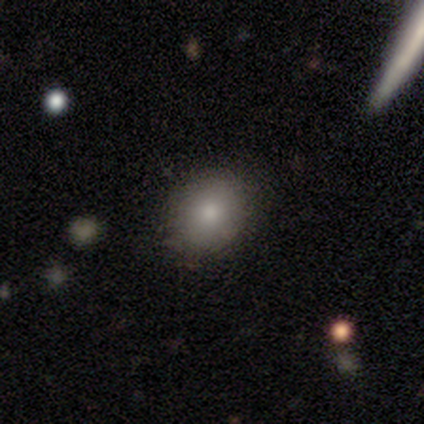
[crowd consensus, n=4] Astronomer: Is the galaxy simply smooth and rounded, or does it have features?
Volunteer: smooth — 100%.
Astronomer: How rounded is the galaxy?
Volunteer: round — 50%, tied with in between at 50%.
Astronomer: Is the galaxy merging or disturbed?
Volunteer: none — 75%.